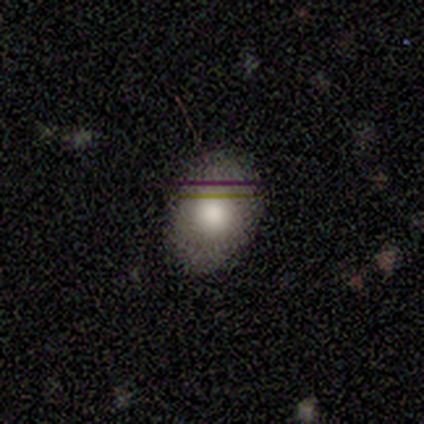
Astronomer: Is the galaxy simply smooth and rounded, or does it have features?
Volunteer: smooth — 60%.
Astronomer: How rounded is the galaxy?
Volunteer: in between — 67%.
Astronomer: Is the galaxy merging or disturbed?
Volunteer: none — 75%.